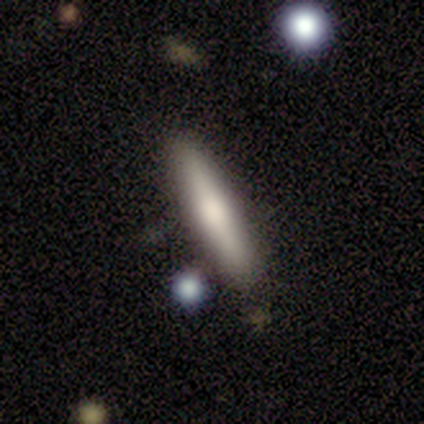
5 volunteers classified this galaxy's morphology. Smooth or featured? smooth (60%)
How rounded? cigar-shaped (100%)
Merging? none (100%)